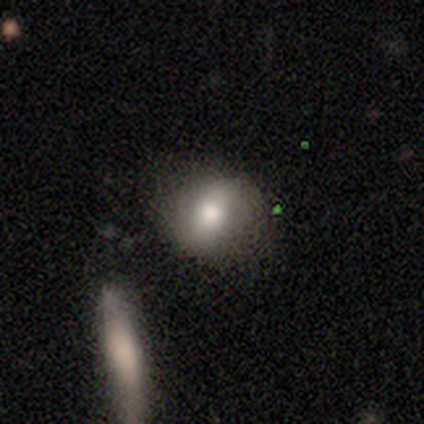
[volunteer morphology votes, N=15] This appears to be a smooth galaxy with no disk features (73%) that is round (55%). Merging: none (80%).